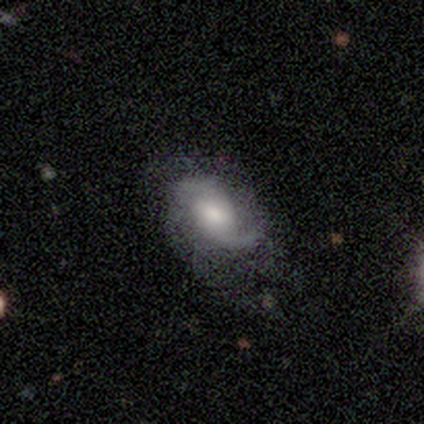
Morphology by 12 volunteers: Overall: featured or disk (92%). Edge-on disk: no (100%). Bar: weak (55%; no 45%). Spiral arms: yes (100%). Spiral arm count: 2 (82%). Spiral winding: medium (82%). Bulge size: moderate (36%, tied with small). Merging: none (50%; major disturbance 33%).